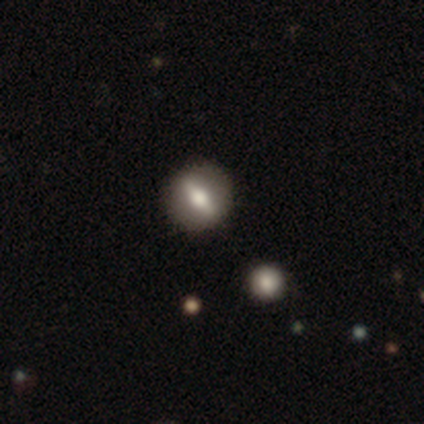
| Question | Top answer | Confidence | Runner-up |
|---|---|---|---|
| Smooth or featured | featured or disk | 60% | smooth (40%) |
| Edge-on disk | no | 100% | — |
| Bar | strong | 67% | weak (33%) |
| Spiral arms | no | 100% | — |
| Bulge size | moderate | 67% | small (33%) |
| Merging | none | 100% | — |